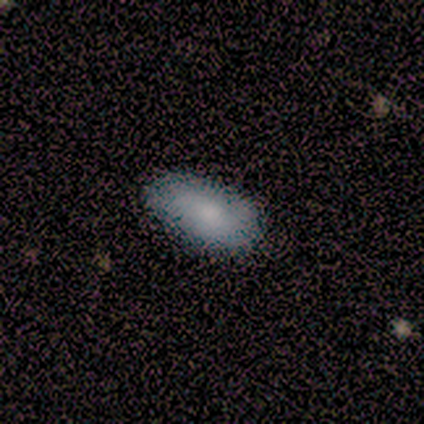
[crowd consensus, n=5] Morphology: type=smooth (80%); roundness=in between (75%); merging=none (80%).